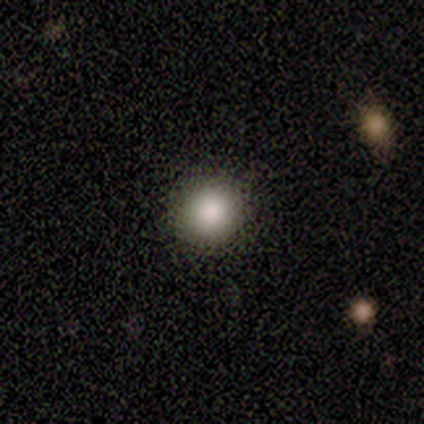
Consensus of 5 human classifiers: This appears to be a smooth galaxy with no disk features (80%) that is round (75%). Merging: none (100%).